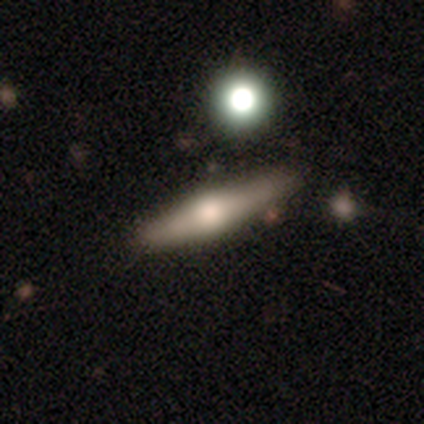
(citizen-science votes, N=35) featured or disk 66%, smooth 26%, star or artifact 9%. Down the decision tree: edge-on disk — yes (100%); edge-on bulge — rounded (100%); merging — none (72%).